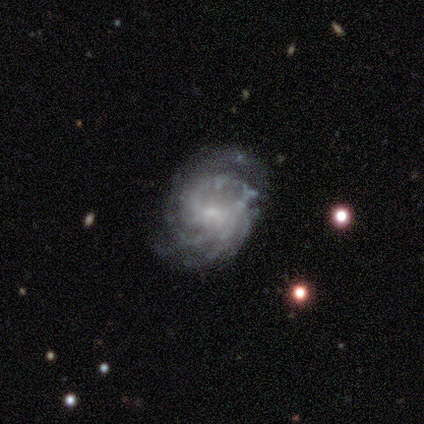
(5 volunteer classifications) Smooth or featured? 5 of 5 (100%) said featured or disk. Edge-on disk? 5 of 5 (100%) said no. Bar? 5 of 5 (100%) said weak. Spiral arms? 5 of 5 (100%) said yes. Spiral winding? 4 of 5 (80%) said medium. Spiral arm count? 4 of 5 (80%) said can't tell. Bulge size? 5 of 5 (100%) said small. Merging? 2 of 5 (40%, tied with minor disturbance) said none.